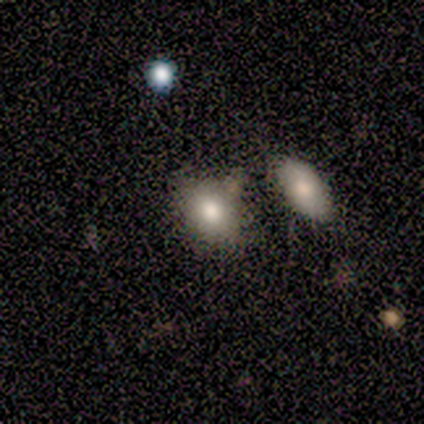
Overall: smooth (80%). How rounded: round (50%, tied with in between). Merging: none (75%).